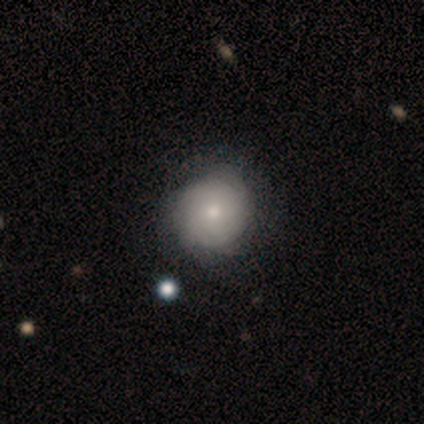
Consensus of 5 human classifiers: Morphology: type=featured or disk (60%); edge-on=no (100%); bar=no (100%); spiral arms=yes (100%); winding=tight (100%); arm count=can't tell (100%); bulge=large (33%, tied with moderate and small); merging=none (100%).